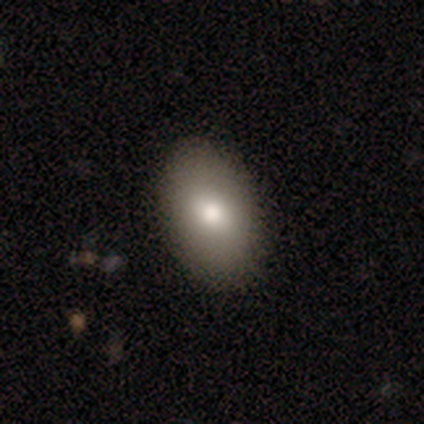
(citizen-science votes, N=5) This appears to be a smooth galaxy with no disk features (80%) that is in between round and cigar-shaped (75%). Merging: none (100%).